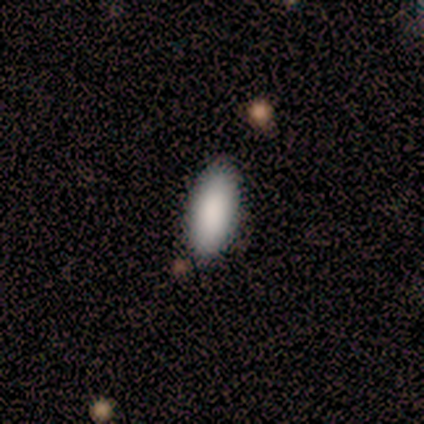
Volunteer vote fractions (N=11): Smooth or featured?
  - smooth: 91% *
  - featured or disk: 9%
  - star or artifact: 0%
How rounded?
  - in between: 90% *
  - cigar-shaped: 10%
  - round: 0%
Merging?
  - none: 82% *
  - minor disturbance: 18%
  - major disturbance: 0%
  - merger: 0%